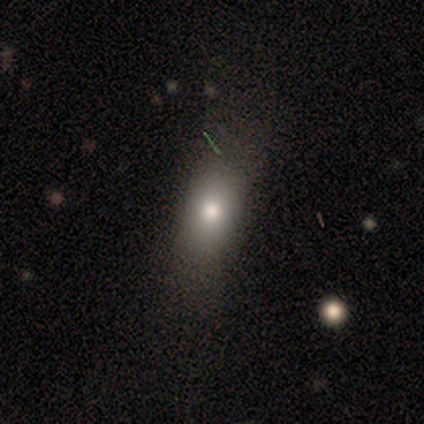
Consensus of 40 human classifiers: Morphology: type=smooth (72%); roundness=in between (79%); merging=none (56%).